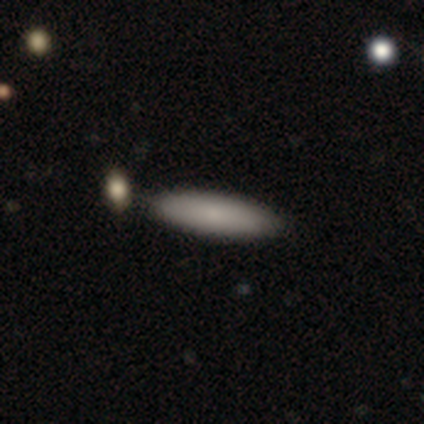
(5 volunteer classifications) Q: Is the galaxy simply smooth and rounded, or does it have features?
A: smooth — 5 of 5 (100%).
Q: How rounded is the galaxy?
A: cigar-shaped — 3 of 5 (60%).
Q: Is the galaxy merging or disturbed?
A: none — 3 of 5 (60%).